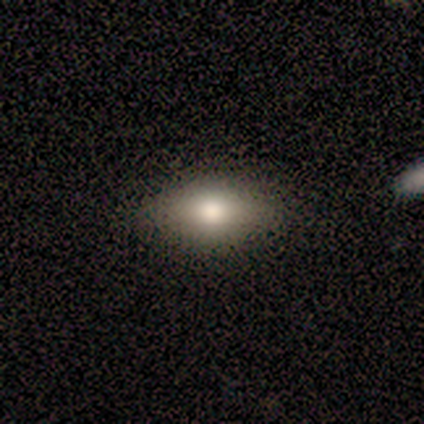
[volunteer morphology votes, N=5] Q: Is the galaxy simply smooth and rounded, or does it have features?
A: smooth — 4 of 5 (80%).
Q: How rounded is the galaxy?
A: in between — 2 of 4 (50%, tied with cigar-shaped).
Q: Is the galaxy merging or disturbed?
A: none — 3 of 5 (60%).